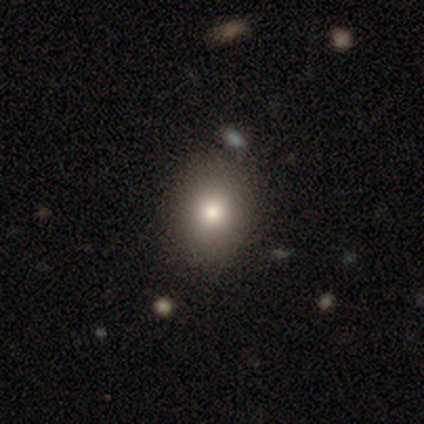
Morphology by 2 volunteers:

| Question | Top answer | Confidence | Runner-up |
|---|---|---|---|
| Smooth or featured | smooth | 50% | tied: featured or disk (50%) |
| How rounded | in between | 100% | — |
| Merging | none | 50% | tied: merger (50%) |